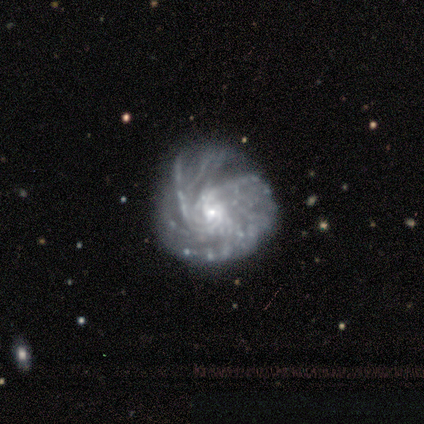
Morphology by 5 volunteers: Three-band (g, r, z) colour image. It shows a featured or disk galaxy (100%) with no bar (100%), medium (80%) spiral arms (100%) and a small central bulge (100%). Merging: none (100%).